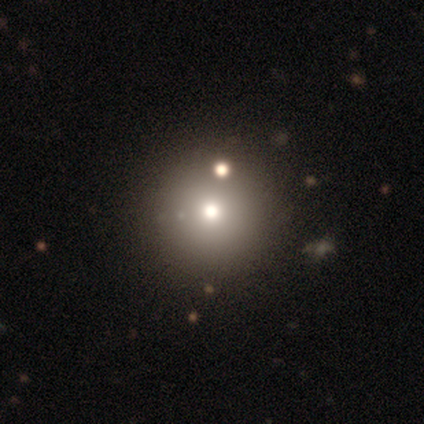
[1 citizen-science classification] A smooth galaxy with no disk features (100%) that is round (100%).

Vote fractions:
- Smooth or featured? smooth: 100% / featured or disk: 0% / star or artifact: 0%
- How rounded? round: 100% / in between: 0% / cigar-shaped: 0%
- Merging? merger: 100% / none: 0% / minor disturbance: 0% / major disturbance: 0%